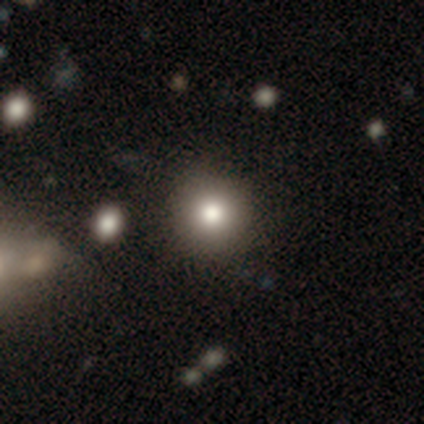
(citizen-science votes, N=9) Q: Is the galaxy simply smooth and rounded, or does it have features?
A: smooth — 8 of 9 (89%).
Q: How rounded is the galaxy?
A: round — 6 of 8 (75%).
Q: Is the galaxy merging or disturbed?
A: none — 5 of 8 (62%).